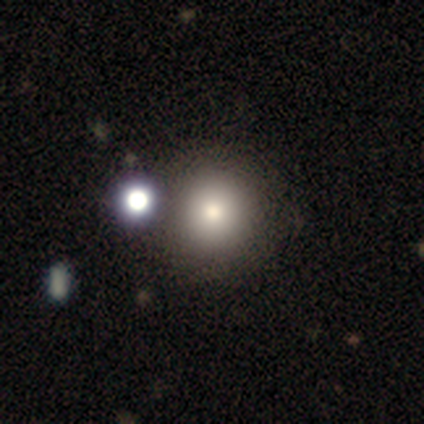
Smooth or featured: smooth — 80% (featured or disk — 20%)
How rounded: round — 100%
Merging: none — 80% (minor disturbance — 20%)